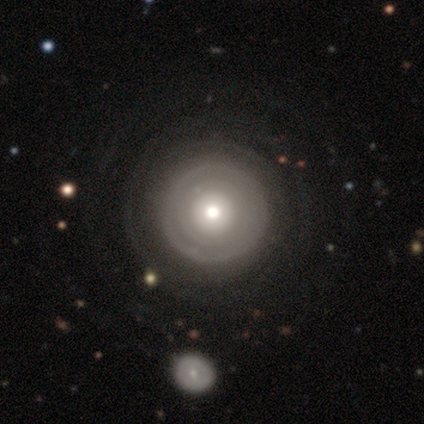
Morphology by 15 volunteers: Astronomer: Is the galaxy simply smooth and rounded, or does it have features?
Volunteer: featured or disk — 60% (runner-up: smooth, 40%).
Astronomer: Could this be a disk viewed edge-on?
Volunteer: no — 89%.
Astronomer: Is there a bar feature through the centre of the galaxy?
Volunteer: no — 100%.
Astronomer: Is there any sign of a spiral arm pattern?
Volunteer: no — 88%.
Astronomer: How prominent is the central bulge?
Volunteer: moderate — 38%, tied with small at 38%.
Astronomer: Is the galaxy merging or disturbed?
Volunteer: none — 73%.